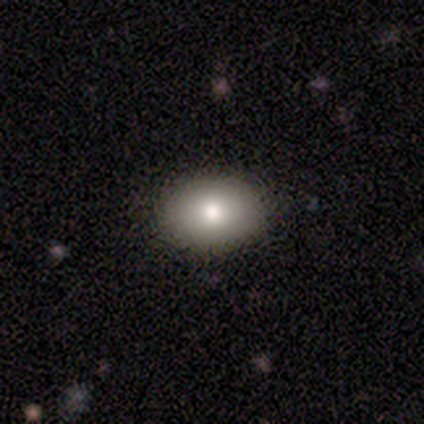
Smooth or featured?
  - smooth: 87% *
  - star or artifact: 10%
  - featured or disk: 3%
How rounded?
  - in between: 71% *
  - round: 29%
  - cigar-shaped: 0%
Merging?
  - none: 89% *
  - minor disturbance: 9%
  - major disturbance: 3%
  - merger: 0%